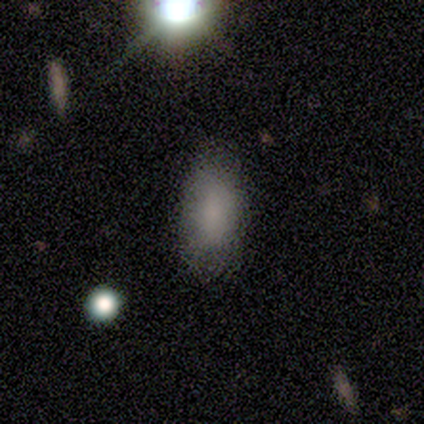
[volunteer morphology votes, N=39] Smooth or featured: smooth — 87% (featured or disk — 8%)
How rounded: in between — 94% (cigar-shaped — 6%)
Merging: none — 62% (minor disturbance — 11%)